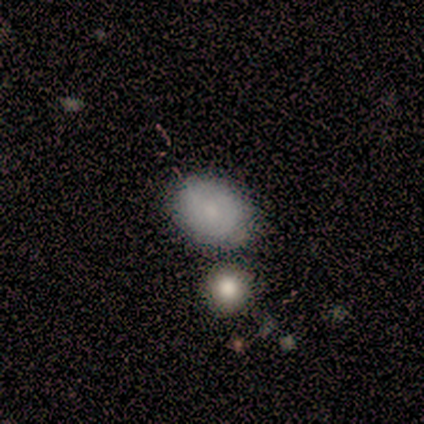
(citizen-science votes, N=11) This is clearly a smooth galaxy (82%). How rounded: possibly in between (56%). Merging: likely none (78%).